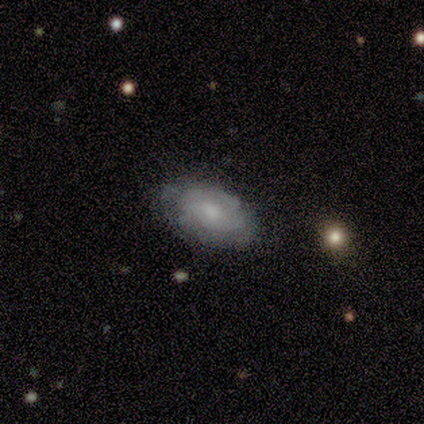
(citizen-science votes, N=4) Smooth or featured?
  - smooth: 50% * (tied)
  - featured or disk: 50% * (tied)
  - star or artifact: 0%
How rounded?
  - in between: 100% *
  - round: 0%
  - cigar-shaped: 0%
Merging?
  - none: 100% *
  - minor disturbance: 0%
  - major disturbance: 0%
  - merger: 0%